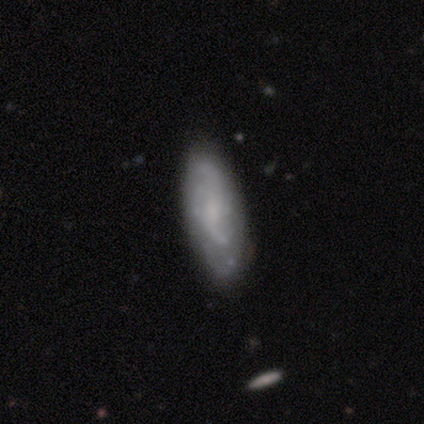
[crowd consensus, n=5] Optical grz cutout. It shows a featured or disk galaxy (60%) with a weak bar (50%, tied with no), more than 4 (100%) tight (100%) spiral arms (50%, tied with no) and no central bulge (100%). Merging: none (75%).